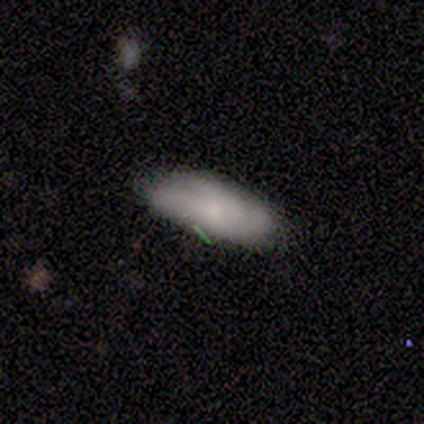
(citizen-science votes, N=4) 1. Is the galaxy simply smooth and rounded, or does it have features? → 50% smooth, 25% featured or disk, 25% star or artifact.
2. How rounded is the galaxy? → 100% in between, 0% round, 0% cigar-shaped.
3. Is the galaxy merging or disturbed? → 67% none, 33% minor disturbance, 0% major disturbance, 0% merger.